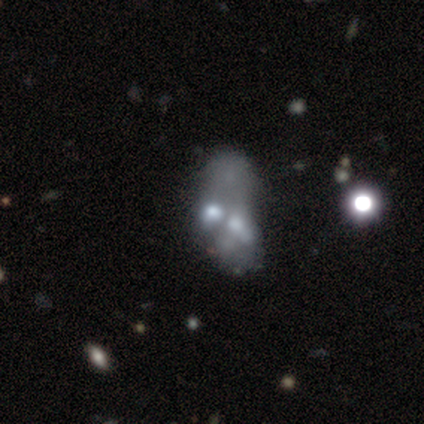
Smooth or featured?
  - featured or disk: 50% *
  - smooth: 42%
  - star or artifact: 8%
Edge-on disk?
  - no: 100% *
  - yes: 0%
Bar?
  - no: 100% *
  - strong: 0%
  - weak: 0%
Spiral arms?
  - no: 100% *
  - yes: 0%
Bulge size?
  - moderate: 37% *
  - small: 32%
  - none: 32%
  - dominant: 0%
  - large: 0%
Merging?
  - merger: 60% *
  - minor disturbance: 20%
  - major disturbance: 11%
  - none: 9%